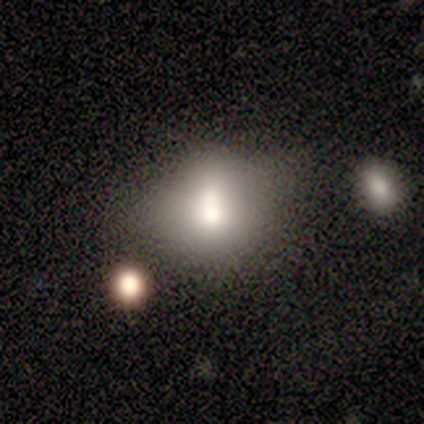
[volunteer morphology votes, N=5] smooth 60%, featured or disk 40%, star or artifact 0%. Down the decision tree: how rounded — round (100%); merging — none (60%).